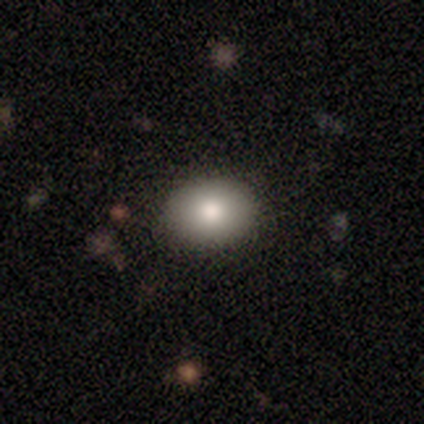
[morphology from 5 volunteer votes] smooth_or_featured: smooth (p=1.00)
how_rounded: round (p=0.60) [alt: in between p=0.40]
merging: none (p=1.00)